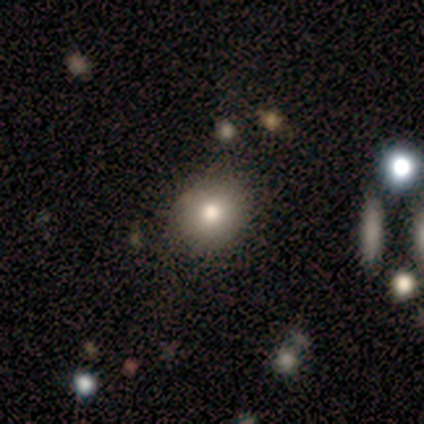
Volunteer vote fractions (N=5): This appears to be a smooth galaxy with no disk features (100%) that is in between round and cigar-shaped (60%). Merging: none (60%).